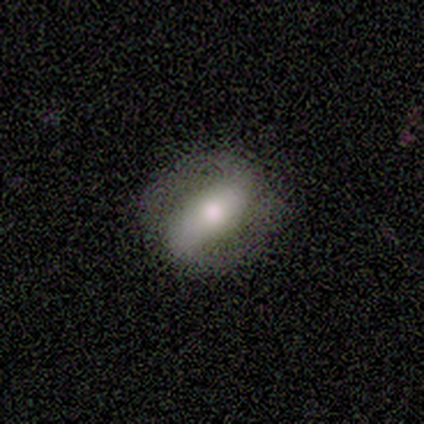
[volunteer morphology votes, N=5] smooth-or-featured: featured or disk: 80% | smooth: 20% | star or artifact: 0%
  disk-edge-on: no: 100% | yes: 0%
    bar: strong: 75% | weak: 25% | no: 0%
    has-spiral-arms: yes: 100% | no: 0%
      spiral-winding: medium: 50% | tight: 25% | loose: 25%
      spiral-arm-count: 2: 75% | can't tell: 25% | 1: 0% | 3: 0% | 4: 0% | more than 4: 0%
    bulge-size: moderate: 100% | dominant: 0% | large: 0% | small: 0% | none: 0%
  merging: none: 100% | minor disturbance: 0% | major disturbance: 0% | merger: 0%